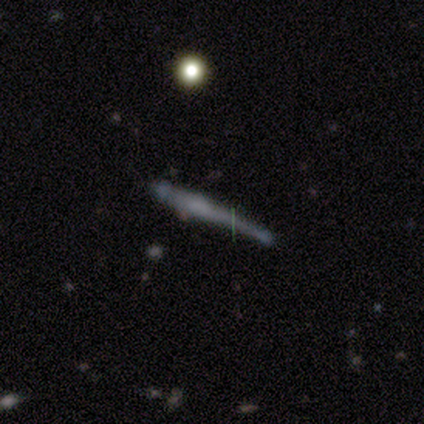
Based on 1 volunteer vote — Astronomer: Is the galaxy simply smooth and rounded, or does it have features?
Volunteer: featured or disk — 100%.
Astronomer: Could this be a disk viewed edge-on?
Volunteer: yes — 100%.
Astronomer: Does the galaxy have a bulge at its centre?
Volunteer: rounded — 100%.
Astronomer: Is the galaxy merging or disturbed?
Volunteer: none — 100%.